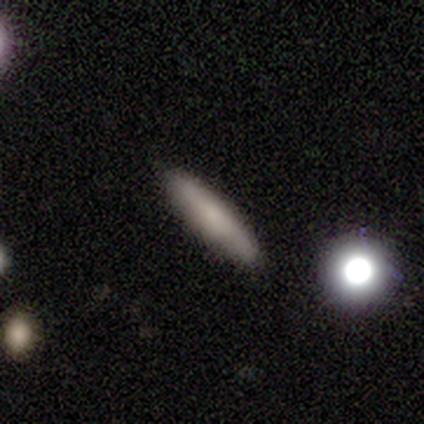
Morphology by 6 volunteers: A smooth galaxy with no disk features (83%) that is cigar-shaped (80%).

Vote fractions:
- Smooth or featured? smooth: 83% / featured or disk: 17% / star or artifact: 0%
- How rounded? cigar-shaped: 80% / round: 20% / in between: 0%
- Merging? none: 83% / minor disturbance: 17% / major disturbance: 0% / merger: 0%